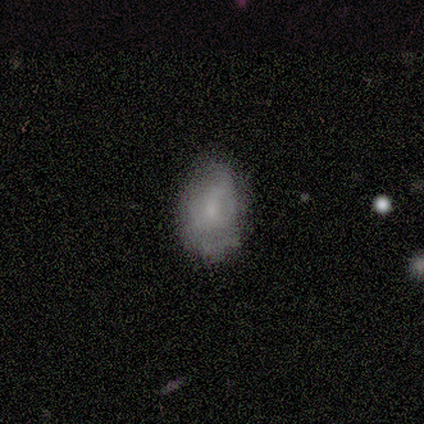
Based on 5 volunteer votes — Morphology: type=smooth (60%); roundness=in between (67%); merging=none (50%, tied with minor disturbance).